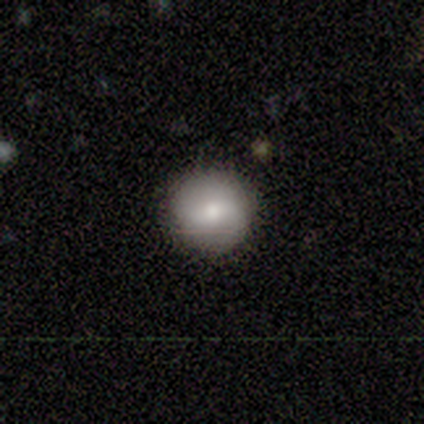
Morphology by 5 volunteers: Smooth or featured?
  - smooth: 80% *
  - featured or disk: 20%
  - star or artifact: 0%
How rounded?
  - round: 100% *
  - in between: 0%
  - cigar-shaped: 0%
Merging?
  - none: 60% *
  - minor disturbance: 20%
  - major disturbance: 20%
  - merger: 0%